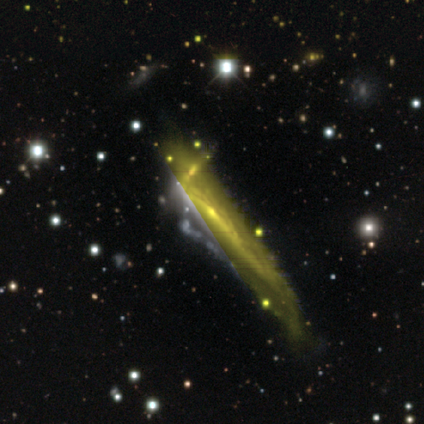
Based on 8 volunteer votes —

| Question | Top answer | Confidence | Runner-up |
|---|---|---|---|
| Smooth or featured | featured or disk | 75% | star or artifact (25%) |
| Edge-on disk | yes | 67% | no (33%) |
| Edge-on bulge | boxy | 50% | tied: none (50%) |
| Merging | minor disturbance | 50% | merger (33%) |